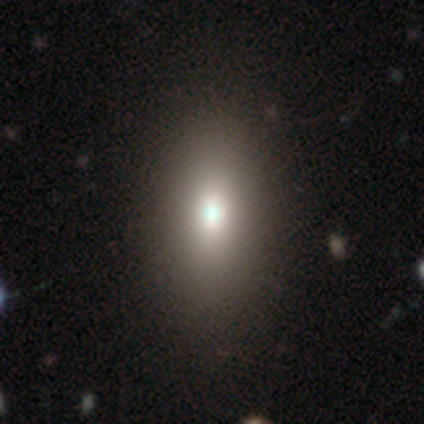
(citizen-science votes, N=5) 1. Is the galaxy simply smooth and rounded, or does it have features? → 60% smooth, 20% featured or disk, 20% star or artifact.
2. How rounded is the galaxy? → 100% in between, 0% round, 0% cigar-shaped.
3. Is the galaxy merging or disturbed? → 100% none, 0% minor disturbance, 0% major disturbance, 0% merger.